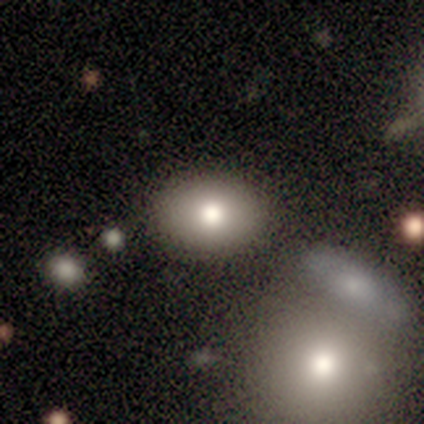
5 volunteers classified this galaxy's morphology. Volunteers were most divided on "merging" (2-way tie): none: 50%, minor disturbance: 50%, major disturbance: 0%, merger: 0%. More confident: how rounded — in between (100%); smooth or featured — smooth (80%).